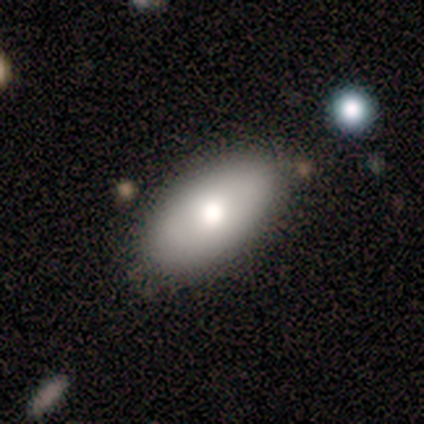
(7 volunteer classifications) smooth_or_featured: smooth (p=0.86) [alt: featured or disk p=0.14]
how_rounded: in between (p=0.83) [alt: cigar-shaped p=0.17]
merging: none (p=0.57) [alt: minor disturbance p=0.29]